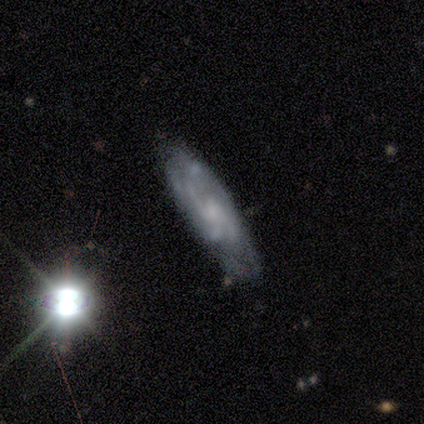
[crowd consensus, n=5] Morphology: type=featured or disk (60%); edge-on=no (100%); bar=no (100%); spiral arms=yes (67%); winding=tight (50%, tied with medium); arm count=2 (50%, tied with can't tell); bulge=none (67%); merging=none (80%).